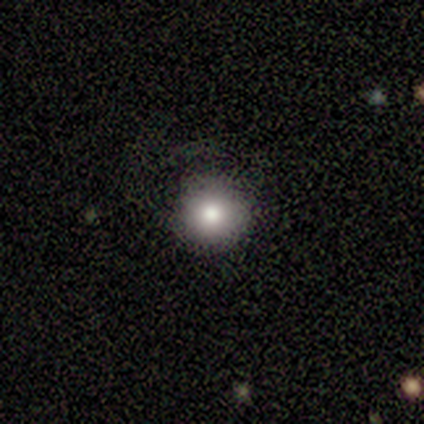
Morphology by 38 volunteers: This appears to be a smooth galaxy with no disk features (74%) that is round (100%). Merging: none (84%).